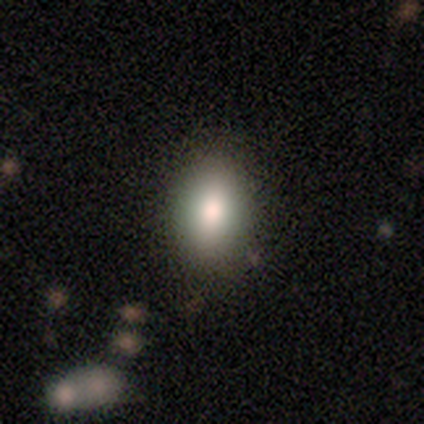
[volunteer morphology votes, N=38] Smooth or featured: smooth — 87% (featured or disk — 8%)
How rounded: in between — 82% (round — 18%)
Merging: none — 83% (minor disturbance — 8%)